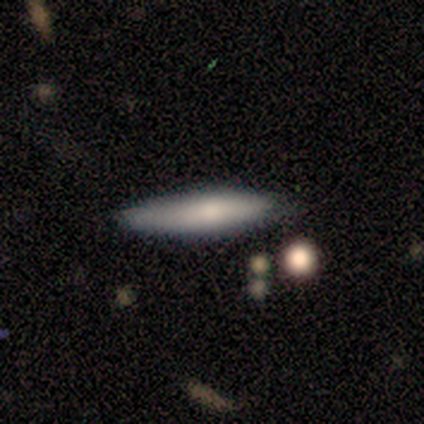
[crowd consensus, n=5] Overall: smooth (80%). How rounded: cigar-shaped (75%). Merging: none (100%).